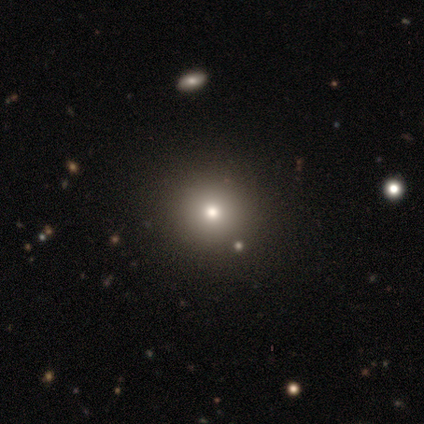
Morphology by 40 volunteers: Q: Smooth or featured?
A: smooth (62%); runner-up: star or artifact (25%)
Q: How rounded?
A: round (96%); runner-up: in between (4%)
Q: Merging?
A: none (87%); runner-up: minor disturbance (7%)